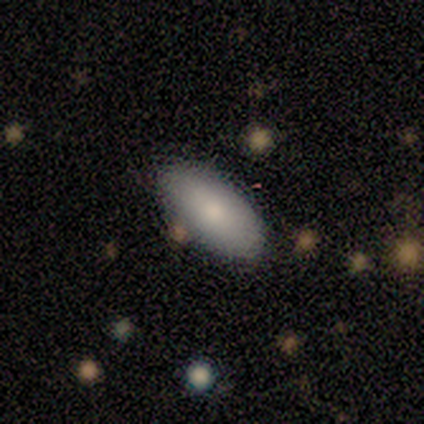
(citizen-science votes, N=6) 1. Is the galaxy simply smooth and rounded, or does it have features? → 100% smooth, 0% featured or disk, 0% star or artifact.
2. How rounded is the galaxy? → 100% in between, 0% round, 0% cigar-shaped.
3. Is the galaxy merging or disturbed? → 83% none, 17% minor disturbance, 0% major disturbance, 0% merger.